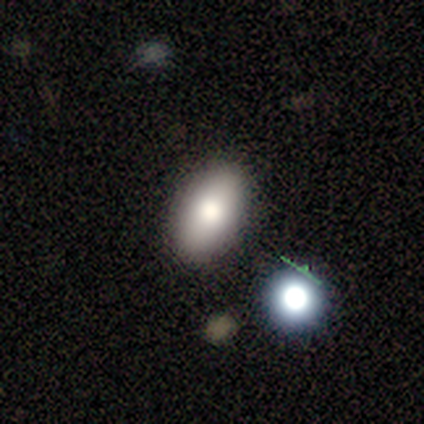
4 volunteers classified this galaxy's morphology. Smooth or featured?
  - smooth: 50% *
  - featured or disk: 25%
  - star or artifact: 25%
How rounded?
  - in between: 100% *
  - round: 0%
  - cigar-shaped: 0%
Merging?
  - none: 67% *
  - minor disturbance: 33%
  - major disturbance: 0%
  - merger: 0%